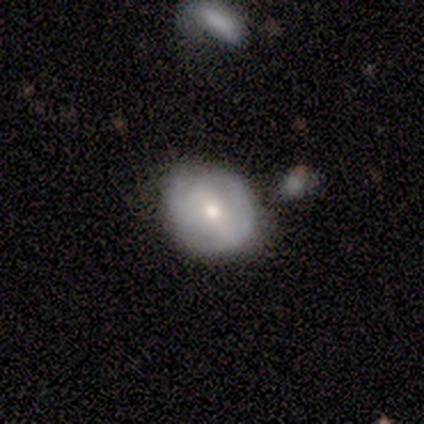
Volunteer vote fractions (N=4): A smooth galaxy with no disk features (50%, tied with featured or disk) that is round (100%).

Vote fractions:
- Smooth or featured? smooth: 50% (tied) / featured or disk: 50% (tied) / star or artifact: 0%
- How rounded? round: 100% / in between: 0% / cigar-shaped: 0%
- Merging? none: 100% / minor disturbance: 0% / major disturbance: 0% / merger: 0%